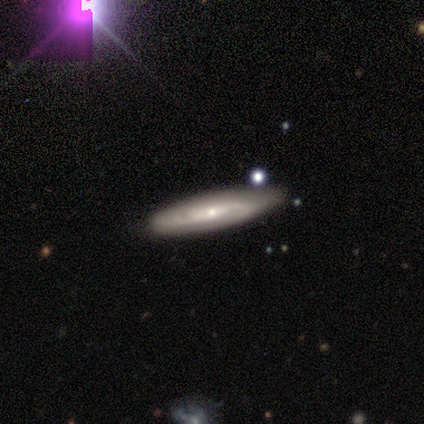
This appears to be a featured or disk galaxy (80%) with no bar (100%), tight (67%) spiral arms (100%) and a small central bulge (100%). Merging: none (100%).